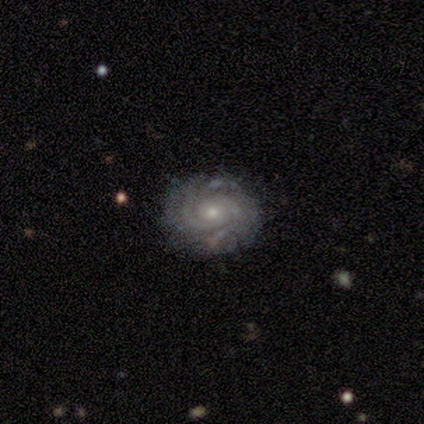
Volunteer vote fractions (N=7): featured or disk 71%, smooth 14%, star or artifact 14%. Down the decision tree: edge-on disk — no (100%); bar — no (80%); spiral arms — yes (80%); spiral arm count — 3 (100%); spiral winding — tight (100%); bulge size — small (60%); merging — none (67%).